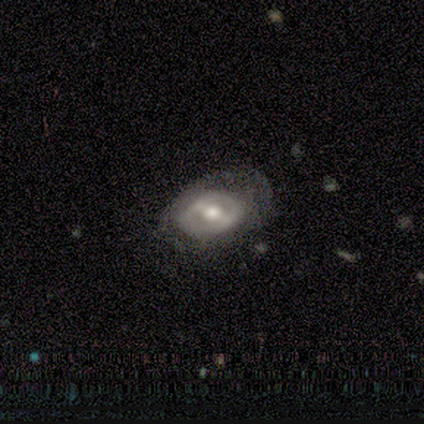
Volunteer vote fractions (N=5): Smooth or featured? 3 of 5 (60%) said smooth. How rounded? 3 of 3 (100%) said in between. Merging? 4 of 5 (80%) said none.